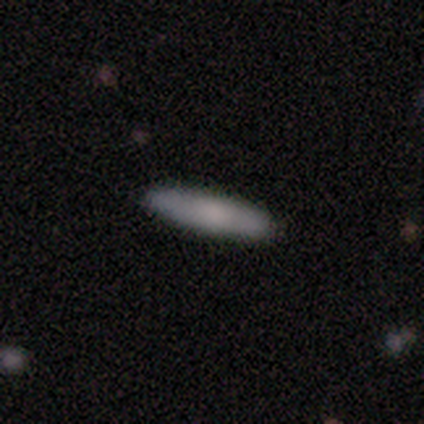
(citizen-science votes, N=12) Morphology: type=smooth (92%); roundness=cigar-shaped (82%); merging=none (83%).